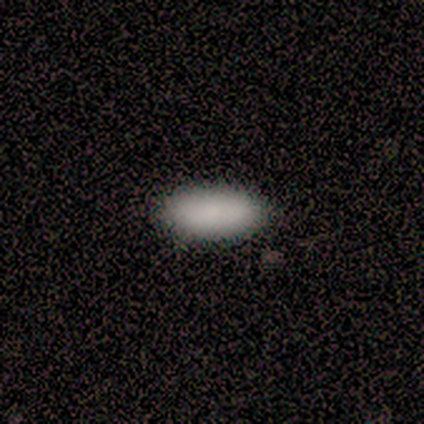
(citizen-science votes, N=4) A smooth galaxy with no disk features (75%) that is in between round and cigar-shaped (100%). Merging: none (100%).